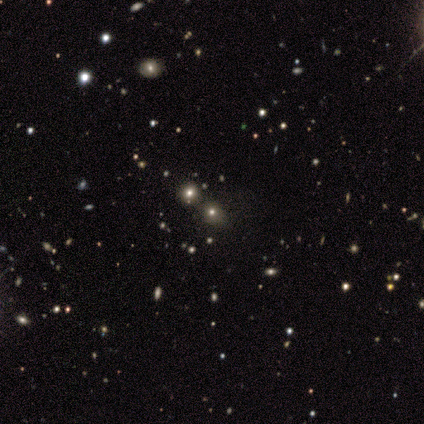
Smooth or featured: smooth — 60% (star or artifact — 30%)
How rounded: round — 83% (in between — 17%)
Merging: none — 43% (minor disturbance — 29%)